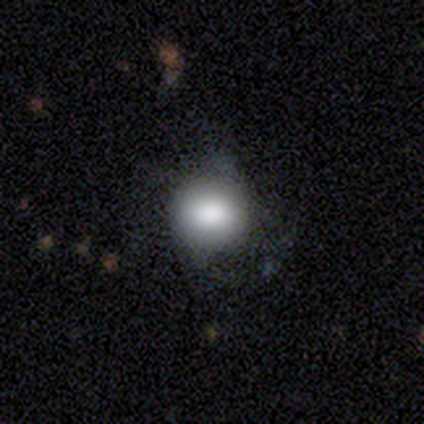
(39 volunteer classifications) smooth-or-featured: smooth: 74% | featured or disk: 21% | star or artifact: 5%
  how-rounded: round: 83% | in between: 17% | cigar-shaped: 0%
  merging: none: 35% | minor disturbance: 24% | major disturbance: 11% | merger: 3%